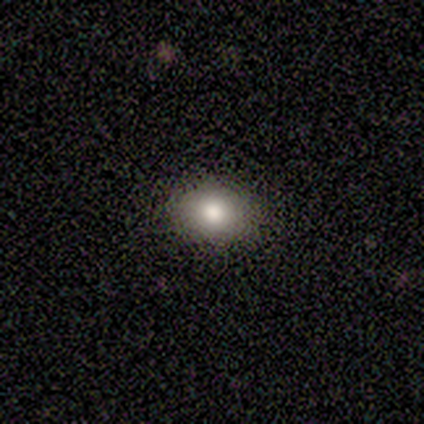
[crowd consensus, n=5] A smooth galaxy with no disk features (100%) that is round (60%). Merging: none (100%).